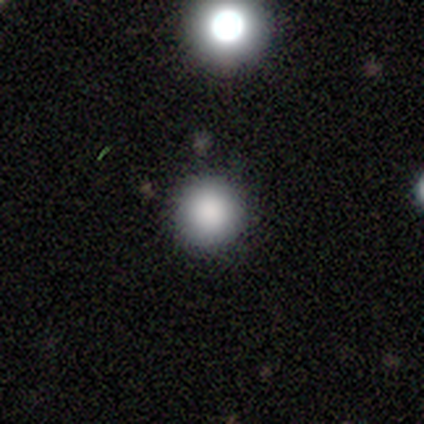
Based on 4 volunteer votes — Volunteers were most divided on "smooth or featured": smooth: 75%, star or artifact: 25%, featured or disk: 0%. More confident: how rounded — round (100%); merging — none (100%).